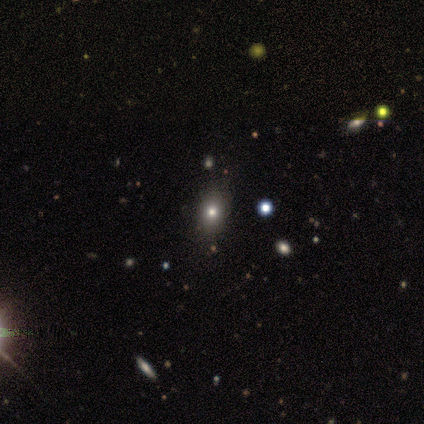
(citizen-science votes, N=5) smooth 40% (tied), star or artifact 40% (tied), featured or disk 20%. Down the decision tree: how rounded — in between (100%); merging — none (67%).